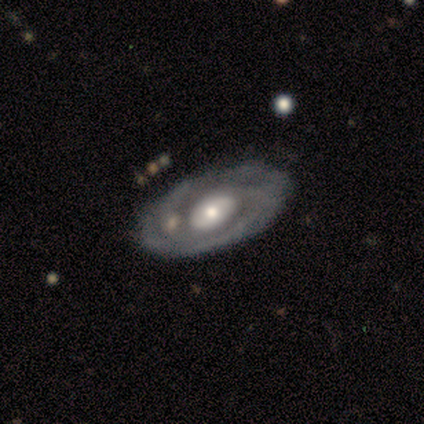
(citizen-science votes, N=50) Smooth or featured? featured or disk (82%)
Edge-on disk? no (93%)
Bar? no (76%)
Spiral arms? yes (87%)
Spiral winding? tight (67%)
Spiral arm count? 2 (33%)
Bulge size? moderate (63%)
Merging? none (78%)